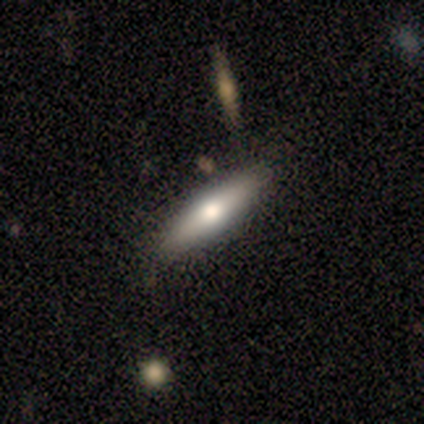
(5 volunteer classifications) Smooth or featured? 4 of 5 (80%) said featured or disk. Edge-on disk? 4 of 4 (100%) said yes. Edge-on bulge? 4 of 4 (100%) said rounded. Merging? 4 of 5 (80%) said none.